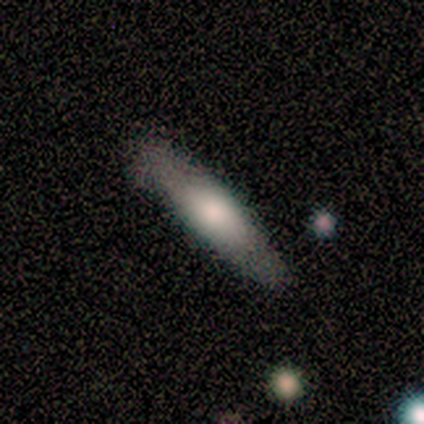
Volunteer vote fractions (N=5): Overall: smooth (80%). How rounded: in between (75%). Merging: none (80%).